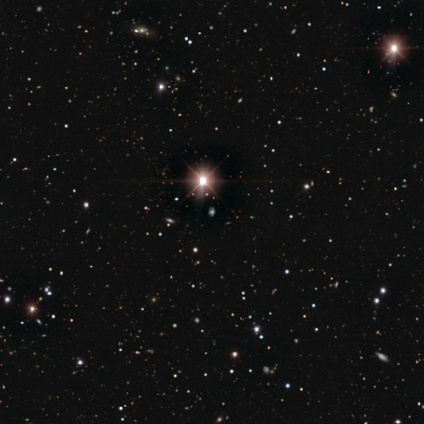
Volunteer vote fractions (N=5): Morphology: type=star or artifact (100%).